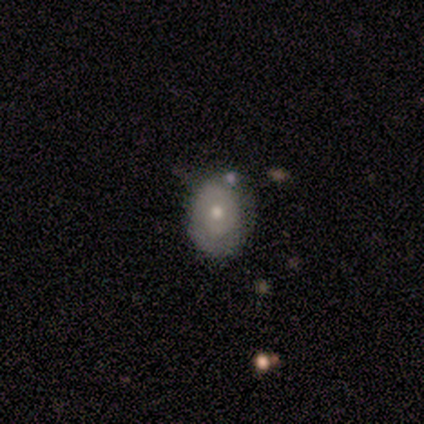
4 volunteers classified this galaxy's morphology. A featured or disk galaxy (50%) with no bar (100%), no spiral arms (100%) and a moderate central bulge (100%). Merging: major disturbance (67%).